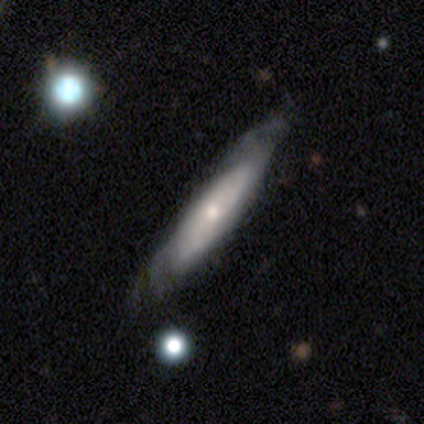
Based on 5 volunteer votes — This appears to be a featured or disk galaxy (80%) viewed edge-on (50%, tied with no) with no central bulge (50%, tied with rounded). Merging: none (100%).